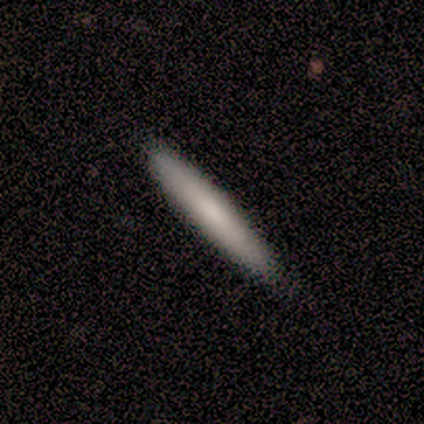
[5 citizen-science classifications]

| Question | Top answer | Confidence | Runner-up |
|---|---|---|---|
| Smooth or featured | smooth | 100% | — |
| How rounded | cigar-shaped | 100% | — |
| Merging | none | 80% | minor disturbance (20%) |